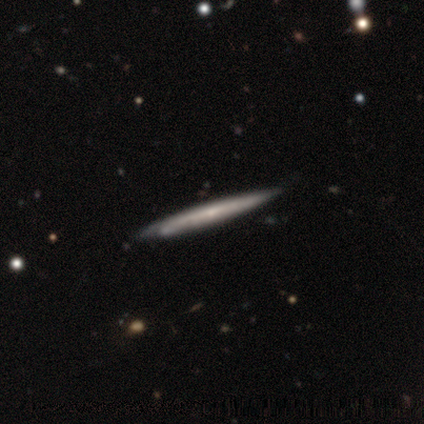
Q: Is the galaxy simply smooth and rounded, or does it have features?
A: featured or disk — 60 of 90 (67%).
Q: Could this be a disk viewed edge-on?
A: yes — 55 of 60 (92%).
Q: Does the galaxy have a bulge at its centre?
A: none — 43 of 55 (78%).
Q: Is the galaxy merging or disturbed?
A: none — 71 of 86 (83%).